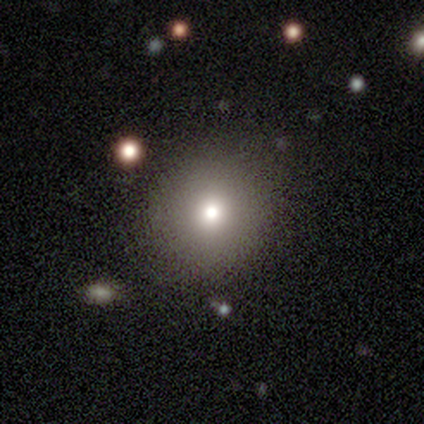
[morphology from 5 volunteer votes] Overall: smooth (80%). How rounded: round (100%). Merging: none (100%).